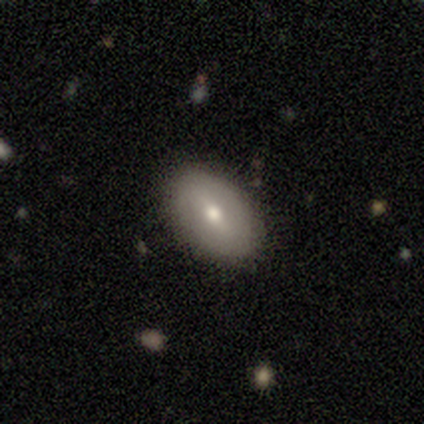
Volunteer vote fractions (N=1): smooth_or_featured: featured or disk (p=1.00)
disk_edge_on: no (p=1.00)
bar: no (p=1.00)
has_spiral_arms: no (p=1.00)
bulge_size: small (p=1.00)
merging: none (p=1.00)